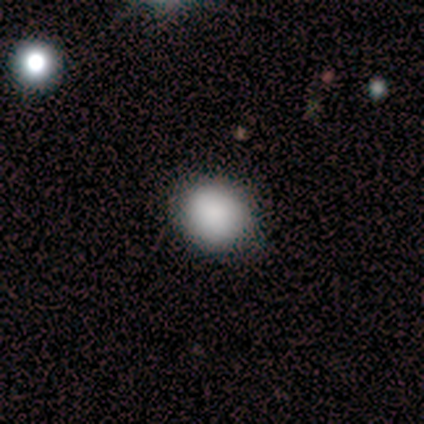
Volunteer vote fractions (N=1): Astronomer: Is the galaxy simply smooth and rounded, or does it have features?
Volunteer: smooth — 100%.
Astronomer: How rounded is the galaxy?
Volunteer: in between — 100%.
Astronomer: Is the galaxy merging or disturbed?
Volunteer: none — 100%.